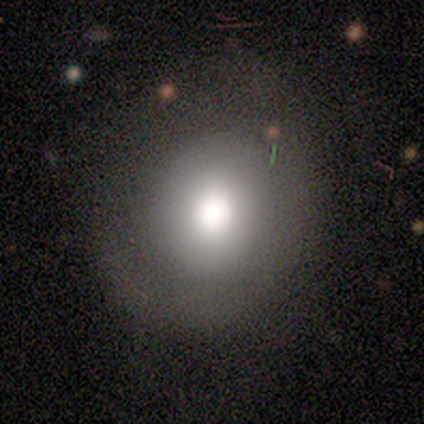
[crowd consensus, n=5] Volunteers were most divided on "smooth or featured": smooth: 60%, star or artifact: 40%, featured or disk: 0%. More confident: how rounded — round (67%); merging — none (67%).